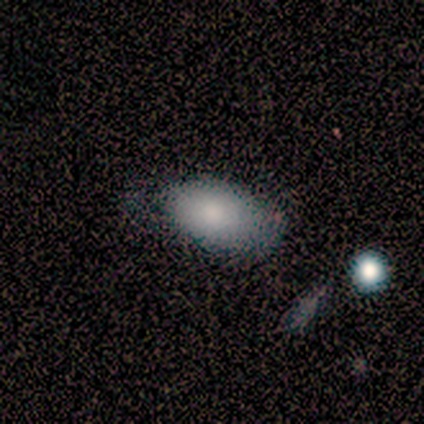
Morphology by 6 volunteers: Volunteers were most divided on "smooth or featured": smooth: 67%, featured or disk: 17%, star or artifact: 17%. More confident: how rounded — in between (100%); merging — minor disturbance (80%).